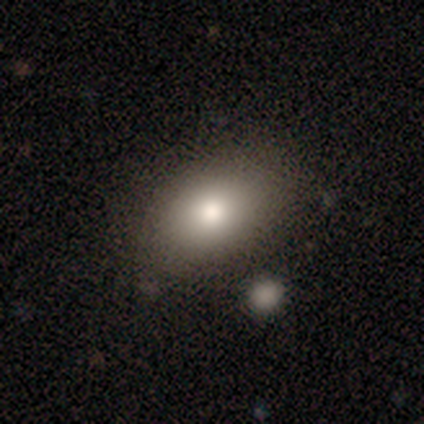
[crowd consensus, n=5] Volunteers were most divided on "smooth or featured": smooth: 80%, star or artifact: 20%, featured or disk: 0%. More confident: how rounded — in between (100%); merging — none (100%).